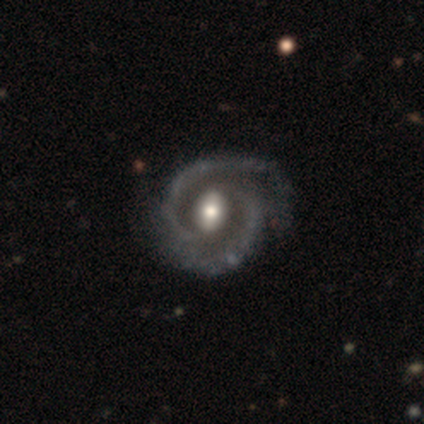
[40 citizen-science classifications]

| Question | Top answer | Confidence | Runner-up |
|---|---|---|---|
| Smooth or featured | featured or disk | 92% | star or artifact (5%) |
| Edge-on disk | no | 97% | yes (3%) |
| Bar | strong | 36% | no (33%) |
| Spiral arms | yes | 97% | no (3%) |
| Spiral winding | medium | 49% | tight (31%) |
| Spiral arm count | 2 | 94% | 3 (6%) |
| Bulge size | moderate | 75% | large (11%) |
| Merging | none | 71% | minor disturbance (18%) |